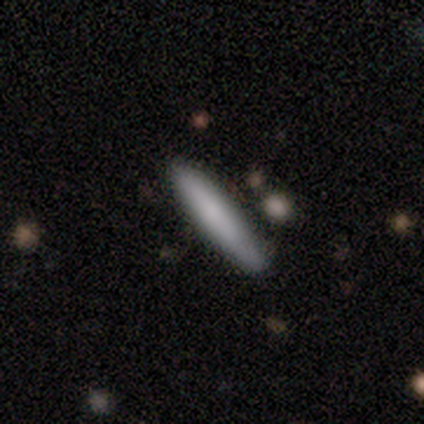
Smooth or featured?
  - smooth: 73% *
  - featured or disk: 22%
  - star or artifact: 5%
How rounded?
  - cigar-shaped: 96% *
  - in between: 4%
  - round: 0%
Merging?
  - none: 74% *
  - minor disturbance: 17%
  - merger: 6%
  - major disturbance: 3%